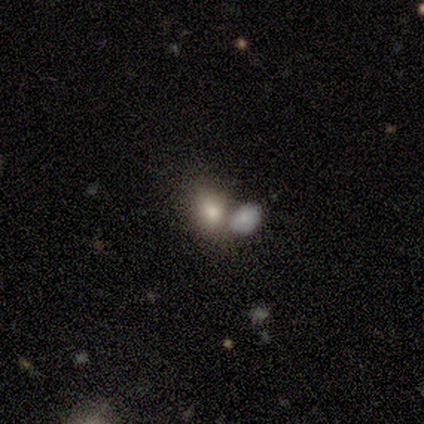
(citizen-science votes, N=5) Morphology: type=smooth (80%); roundness=in between (75%); merging=none (50%).